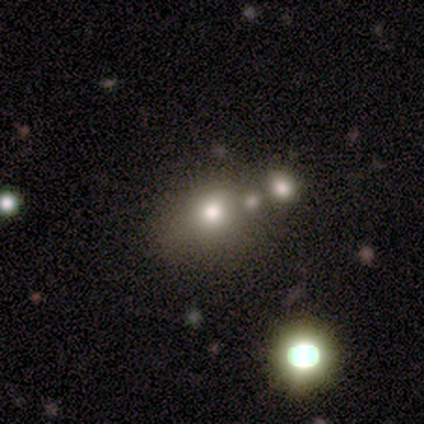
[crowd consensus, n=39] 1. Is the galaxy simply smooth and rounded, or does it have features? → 64% smooth, 21% star or artifact, 15% featured or disk.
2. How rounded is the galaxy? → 56% round, 40% in between, 4% cigar-shaped.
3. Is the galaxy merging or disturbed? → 39% none (tied), 39% merger (tied), 10% minor disturbance, 3% major disturbance.